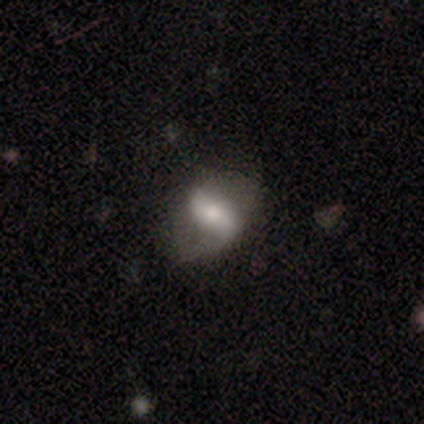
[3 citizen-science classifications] This appears to be a smooth galaxy with no disk features (67%) that is in between round and cigar-shaped (100%). Merging: none (100%).